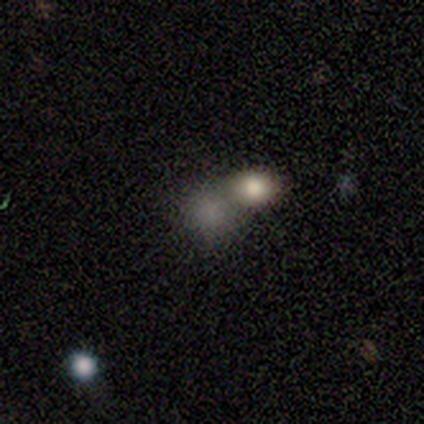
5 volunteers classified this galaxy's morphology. Volunteers were most divided on "merging" (2-way tie): none: 50%, merger: 50%, minor disturbance: 0%, major disturbance: 0%. More confident: smooth or featured — smooth (80%); how rounded — round (75%).